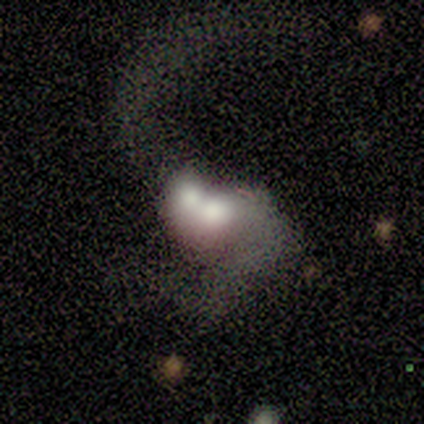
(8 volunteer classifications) This appears to be a featured or disk galaxy (100%) with no bar (88%), 2 (100%) loose (100%) spiral arms (75%) and a large central bulge (62%). Merging: merger (100%).